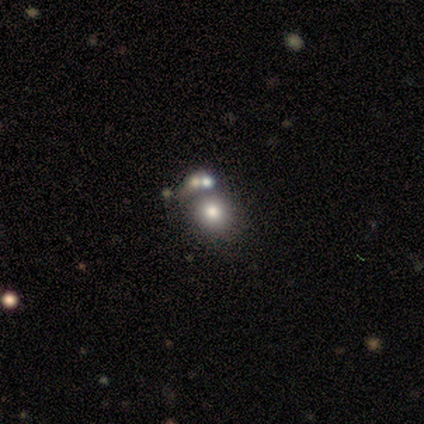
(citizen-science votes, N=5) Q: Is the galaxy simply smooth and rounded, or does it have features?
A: smooth — 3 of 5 (60%).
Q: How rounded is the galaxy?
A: round — 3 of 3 (100%).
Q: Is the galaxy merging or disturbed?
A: none — 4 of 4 (100%).